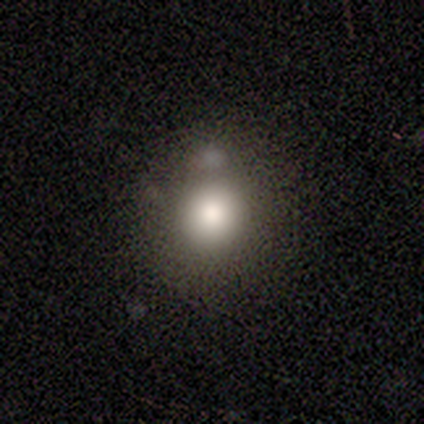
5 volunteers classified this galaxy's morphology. smooth_or_featured: smooth (p=0.80) [alt: featured or disk p=0.20]
how_rounded: round (p=1.00)
merging: none (p=0.80) [alt: minor disturbance p=0.20]